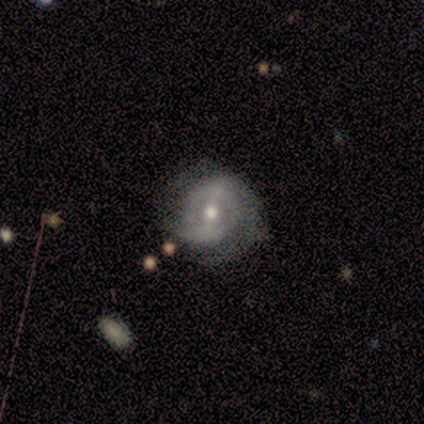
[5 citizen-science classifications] Morphology: type=featured or disk (80%); edge-on=no (100%); bar=weak (50%, tied with no); spiral arms=yes (100%); winding=medium (50%); arm count=2 (75%); bulge=moderate (50%, tied with small); merging=none (100%).